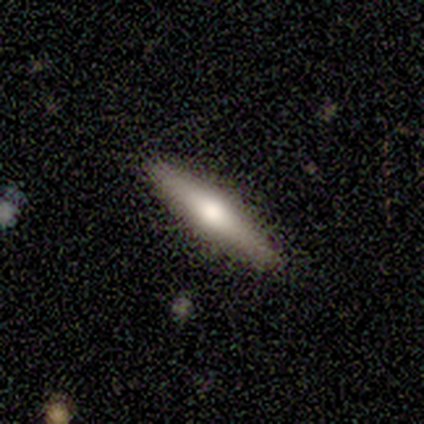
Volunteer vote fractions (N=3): Smooth or featured?
  - featured or disk: 100% *
  - smooth: 0%
  - star or artifact: 0%
Edge-on disk?
  - yes: 100% *
  - no: 0%
Edge-on bulge?
  - rounded: 100% *
  - boxy: 0%
  - none: 0%
Merging?
  - none: 100% *
  - minor disturbance: 0%
  - major disturbance: 0%
  - merger: 0%